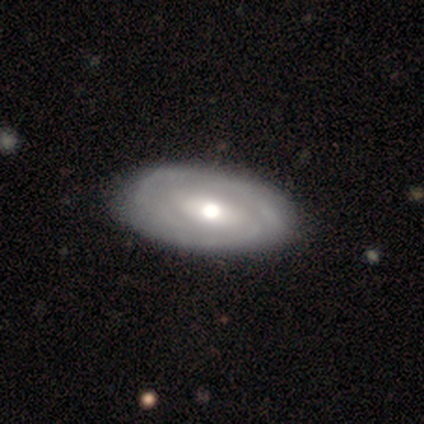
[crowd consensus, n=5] A featured or disk galaxy (100%) with no bar (60%), 3 (50%, tied with can't tell) tight (100%) spiral arms (80%) and a large central bulge (80%).

Vote fractions:
- Smooth or featured? featured or disk: 100% / smooth: 0% / star or artifact: 0%
- Edge-on disk? no: 100% / yes: 0%
- Bar? no: 60% / weak: 40% / strong: 0%
- Spiral arms? yes: 80% / no: 20%
- Spiral winding? tight: 100% / medium: 0% / loose: 0%
- Spiral arm count? 3: 50% (tied) / can't tell: 50% (tied) / 1: 0% / 2: 0% / 4: 0% / more than 4: 0%
- Bulge size? large: 80% / moderate: 20% / dominant: 0% / small: 0% / none: 0%
- Merging? none: 100% / minor disturbance: 0% / major disturbance: 0% / merger: 0%